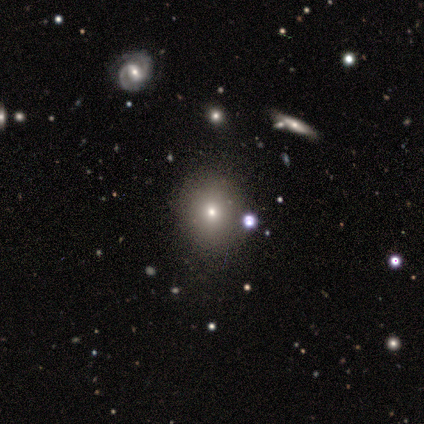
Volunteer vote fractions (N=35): This is likely a smooth galaxy (71%). How rounded: likely round (76%). Merging: marginally none (38%).